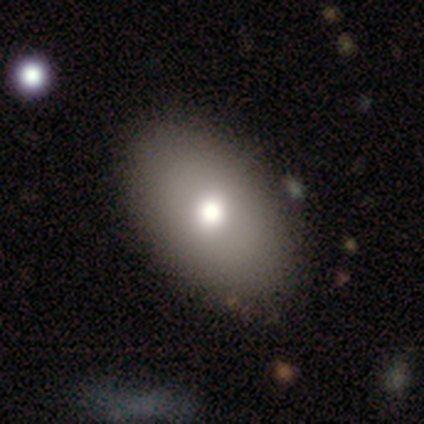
A smooth galaxy with no disk features (100%) that is in between round and cigar-shaped (100%). Merging: none (100%).